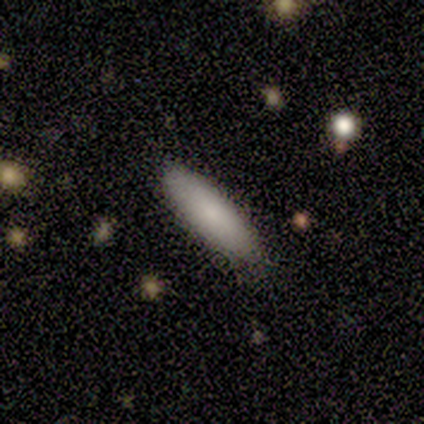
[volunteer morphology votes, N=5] This is clearly a smooth galaxy (80%). How rounded: likely cigar-shaped (75%). Merging: clearly none (100%).